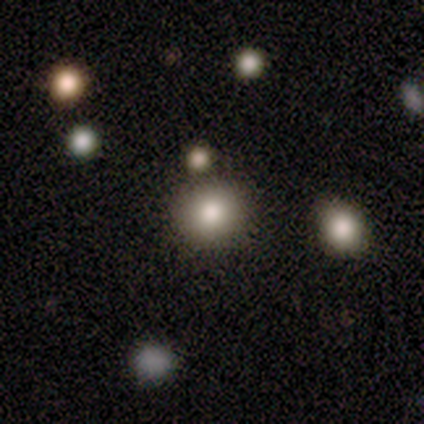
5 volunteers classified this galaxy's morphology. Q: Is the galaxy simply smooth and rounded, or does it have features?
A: smooth — 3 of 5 (60%).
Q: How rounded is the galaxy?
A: round — 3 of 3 (100%).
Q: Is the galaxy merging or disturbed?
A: none — 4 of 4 (100%).